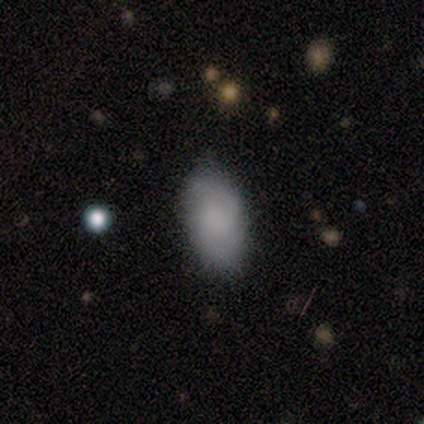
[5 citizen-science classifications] Smooth or featured? smooth (80%)
How rounded? in between (100%)
Merging? none (80%)